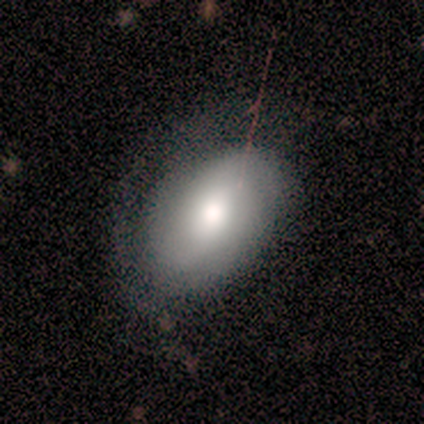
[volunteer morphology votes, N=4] Smooth or featured? 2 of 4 (50%) said smooth. How rounded? 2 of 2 (100%) said in between. Merging? 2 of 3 (67%) said none.